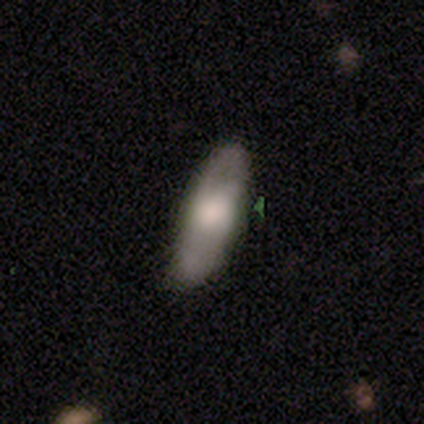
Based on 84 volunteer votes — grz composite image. It shows a smooth galaxy with no disk features (62%) that is in between round and cigar-shaped (67%). Merging: none (75%).